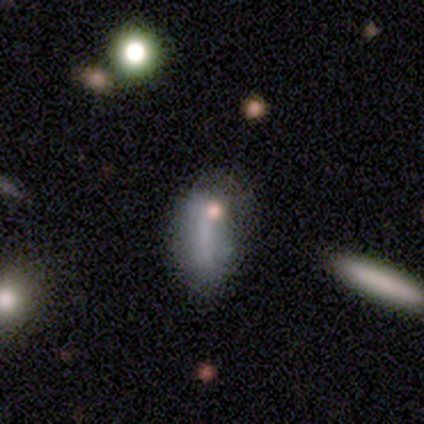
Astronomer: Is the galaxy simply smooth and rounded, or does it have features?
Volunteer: featured or disk — 60% (runner-up: smooth, 40%).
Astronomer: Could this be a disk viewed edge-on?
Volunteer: no — 100%.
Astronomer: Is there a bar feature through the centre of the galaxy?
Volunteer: no — 67%.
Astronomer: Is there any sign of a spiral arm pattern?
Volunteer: no — 67%.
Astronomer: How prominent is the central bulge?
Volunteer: none — 67%.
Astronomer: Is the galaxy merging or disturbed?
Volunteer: none — 40%, tied with major disturbance at 40%.